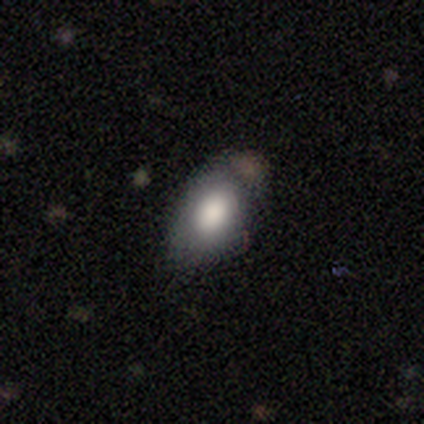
This is clearly a smooth galaxy (82%). How rounded: clearly in between (97%). Merging: possibly none (57%).